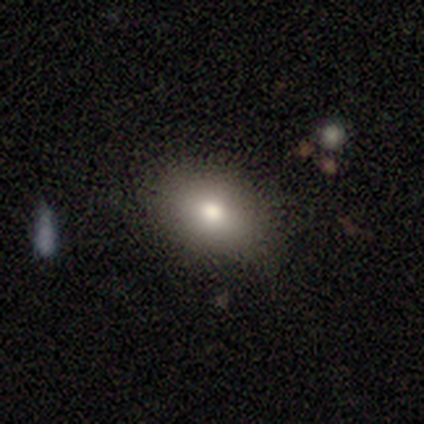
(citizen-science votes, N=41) Morphology: type=smooth (85%); roundness=in between (97%); merging=none (89%).